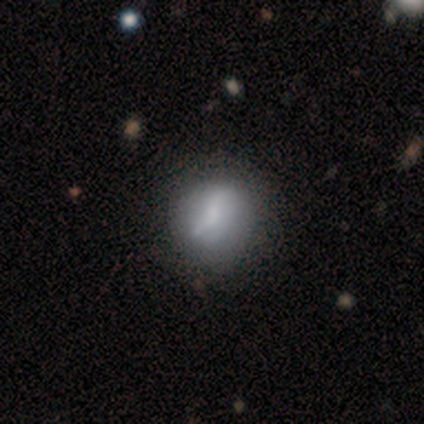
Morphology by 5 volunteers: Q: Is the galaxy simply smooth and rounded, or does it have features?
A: featured or disk — 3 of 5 (60%).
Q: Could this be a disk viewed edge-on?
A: no — 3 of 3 (100%).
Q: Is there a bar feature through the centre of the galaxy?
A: weak — 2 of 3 (67%).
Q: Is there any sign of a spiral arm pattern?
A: no — 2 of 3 (67%).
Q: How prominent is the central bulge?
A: dominant — 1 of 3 (33%, tied with small and none).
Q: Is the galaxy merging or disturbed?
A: none — 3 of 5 (60%).